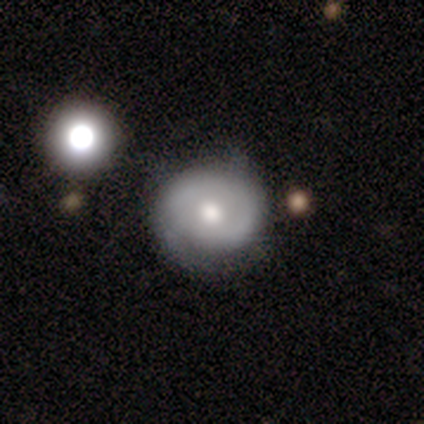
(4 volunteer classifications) Volunteers were most divided on "smooth or featured": smooth: 75%, featured or disk: 25%, star or artifact: 0%. More confident: how rounded — round (100%); merging — none (75%).